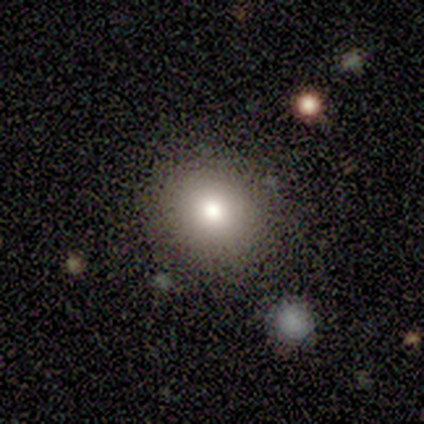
A smooth galaxy with no disk features (83%) that is round (90%).

Vote fractions:
- Smooth or featured? smooth: 83% / featured or disk: 17% / star or artifact: 0%
- How rounded? round: 90% / in between: 10% / cigar-shaped: 0%
- Merging? none: 83% / minor disturbance: 8% / major disturbance: 8% / merger: 0%